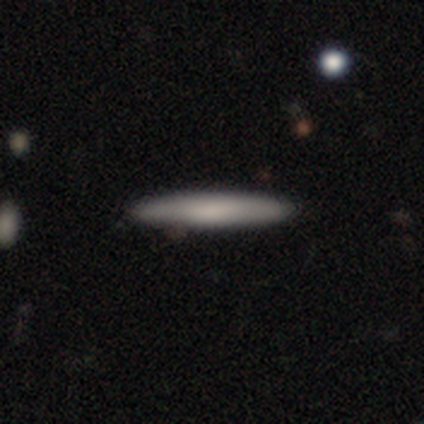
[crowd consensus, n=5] smooth_or_featured: smooth (p=0.80) [alt: featured or disk p=0.20]
how_rounded: cigar-shaped (p=1.00)
merging: none (p=0.80) [alt: merger p=0.20]